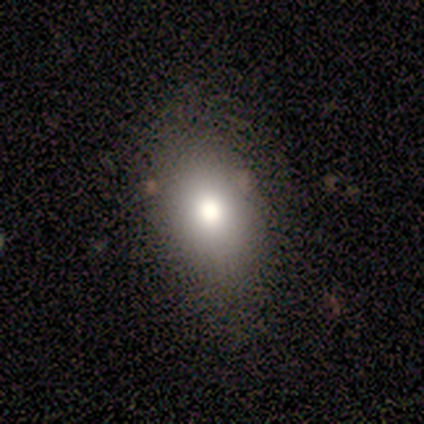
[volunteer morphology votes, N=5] Smooth or featured? smooth (80%)
How rounded? in between (100%)
Merging? none (100%)